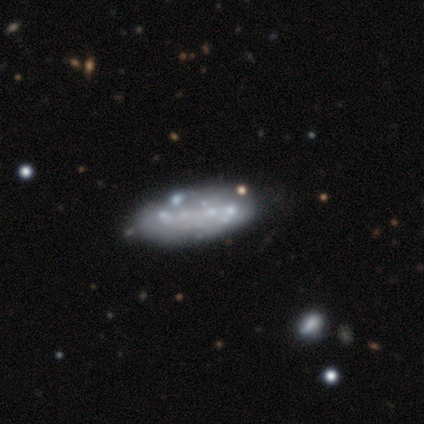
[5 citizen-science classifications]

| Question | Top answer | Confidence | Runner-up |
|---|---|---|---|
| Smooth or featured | featured or disk | 80% | smooth (20%) |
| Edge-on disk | no | 100% | — |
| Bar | no | 100% | — |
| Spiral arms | no | 100% | — |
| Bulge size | none | 75% | moderate (25%) |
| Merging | none | 80% | major disturbance (20%) |